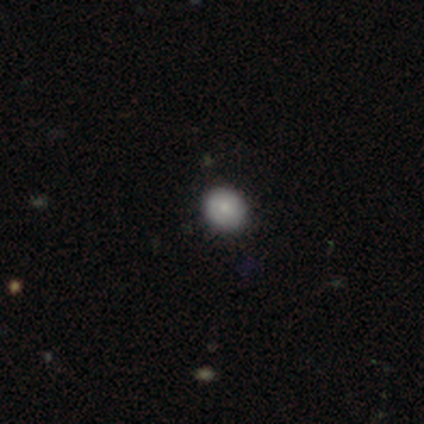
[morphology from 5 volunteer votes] A smooth galaxy with no disk features (60%) that is round (67%). Merging: none (100%).